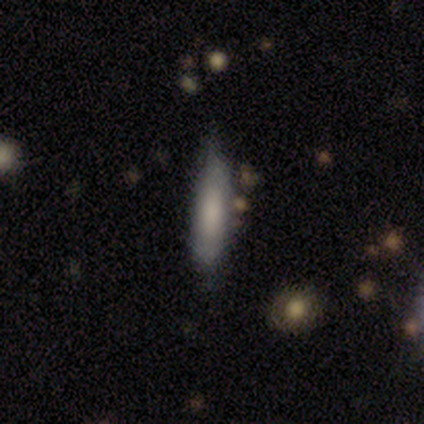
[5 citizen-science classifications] Q: Smooth or featured?
A: smooth (40%); tied with: featured or disk (40%)
Q: How rounded?
A: cigar-shaped (100%)
Q: Merging?
A: none (50%); tied with: minor disturbance (50%)